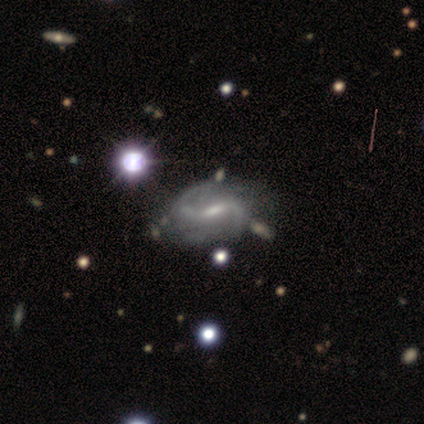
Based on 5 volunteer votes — A featured or disk galaxy (100%) with a weak bar (50%), 2 (100%) medium (50%, tied with loose) spiral arms (100%) and a small central bulge (75%). Merging: none (60%).